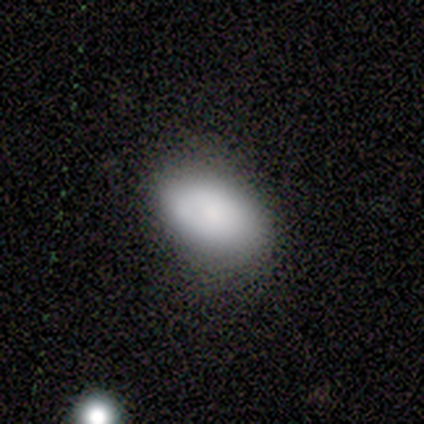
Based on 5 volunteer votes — smooth-or-featured: smooth: 100% | featured or disk: 0% | star or artifact: 0%
  how-rounded: in between: 100% | round: 0% | cigar-shaped: 0%
  merging: none: 60% | minor disturbance: 40% | major disturbance: 0% | merger: 0%